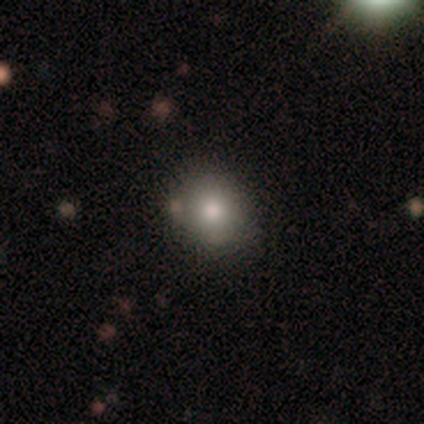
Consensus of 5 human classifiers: A smooth galaxy with no disk features (100%) that is round (60%). Merging: none (80%).